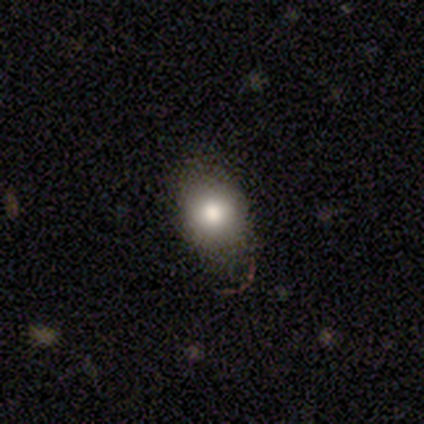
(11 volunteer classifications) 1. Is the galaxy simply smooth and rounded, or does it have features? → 73% smooth, 18% star or artifact, 9% featured or disk.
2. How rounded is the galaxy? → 88% round, 12% in between, 0% cigar-shaped.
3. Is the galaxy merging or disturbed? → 89% none, 11% minor disturbance, 0% major disturbance, 0% merger.